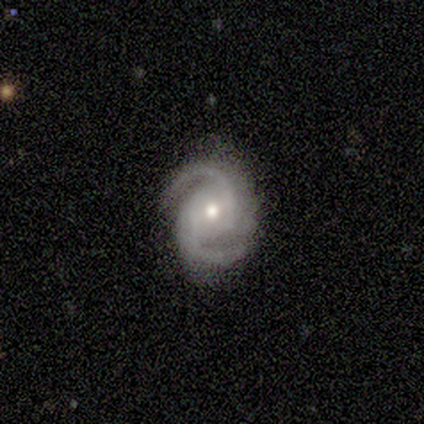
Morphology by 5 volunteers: Smooth or featured? featured or disk (100%)
Edge-on disk? no (80%)
Bar? no (75%)
Spiral arms? yes (100%)
Spiral winding? tight (50%, tied with medium)
Spiral arm count? 2 (100%)
Bulge size? moderate (50%, tied with small)
Merging? none (80%)